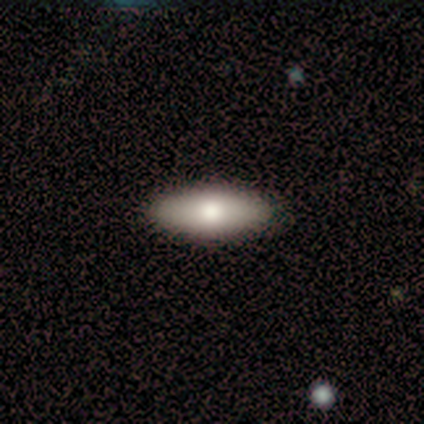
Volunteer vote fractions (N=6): smooth_or_featured: smooth (p=1.00)
how_rounded: in between (p=1.00)
merging: none (p=0.83) [alt: minor disturbance p=0.17]